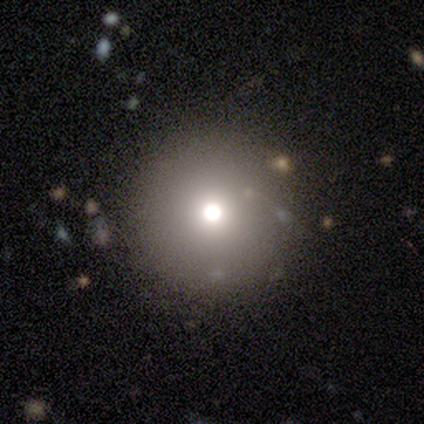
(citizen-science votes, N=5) Overall: smooth (60%; star or artifact 40%). How rounded: round (100%). Merging: none (100%).